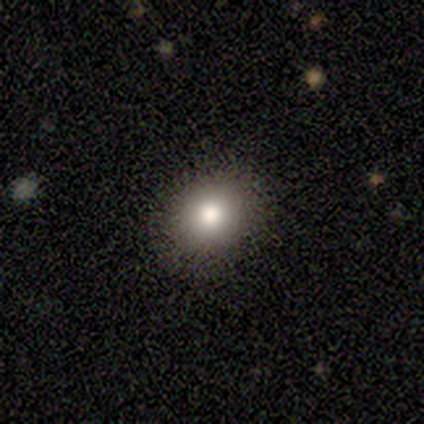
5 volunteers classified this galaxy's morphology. smooth-or-featured: smooth: 80% | featured or disk: 20% | star or artifact: 0%
  how-rounded: round: 50% (tied) | in between: 50% (tied) | cigar-shaped: 0%
  merging: none: 100% | minor disturbance: 0% | major disturbance: 0% | merger: 0%